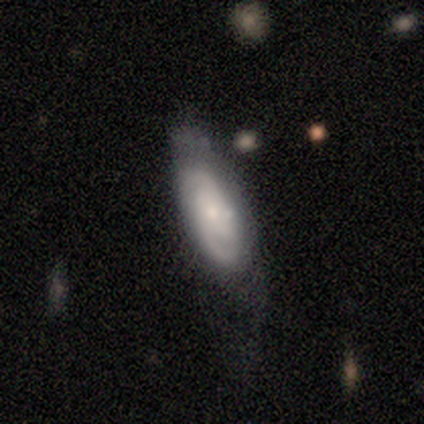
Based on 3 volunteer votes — Smooth or featured?
  - featured or disk: 100% *
  - smooth: 0%
  - star or artifact: 0%
Edge-on disk?
  - no: 100% *
  - yes: 0%
Bar?
  - no: 67% *
  - strong: 33%
  - weak: 0%
Spiral arms?
  - yes: 100% *
  - no: 0%
Spiral winding?
  - tight: 100% *
  - medium: 0%
  - loose: 0%
Spiral arm count?
  - can't tell: 67% *
  - 2: 33%
  - 1: 0%
  - 3: 0%
  - 4: 0%
  - more than 4: 0%
Bulge size?
  - small: 67% *
  - moderate: 33%
  - dominant: 0%
  - large: 0%
  - none: 0%
Merging?
  - minor disturbance: 100% *
  - none: 0%
  - major disturbance: 0%
  - merger: 0%